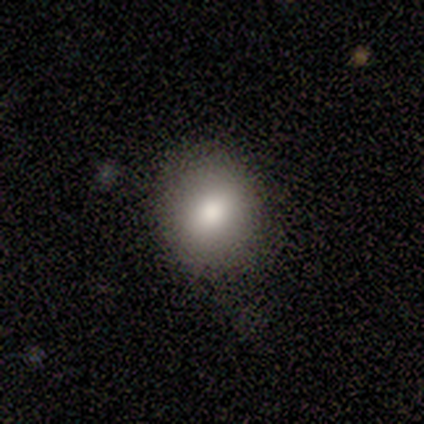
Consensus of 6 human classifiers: Overall: smooth (83%). How rounded: round (60%; in between 40%). Merging: none (100%).